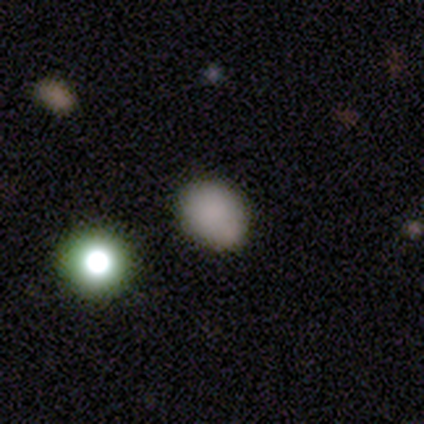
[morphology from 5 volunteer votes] Smooth or featured? smooth (100%)
How rounded? in between (60%)
Merging? none (60%)